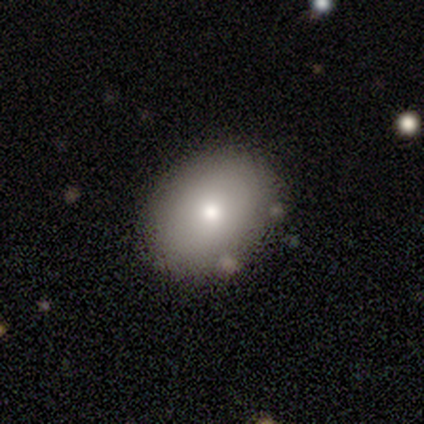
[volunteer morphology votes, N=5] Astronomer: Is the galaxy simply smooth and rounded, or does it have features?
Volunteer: smooth — 80%.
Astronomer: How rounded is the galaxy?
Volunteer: round — 75%.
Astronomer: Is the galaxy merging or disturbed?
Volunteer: none — 100%.